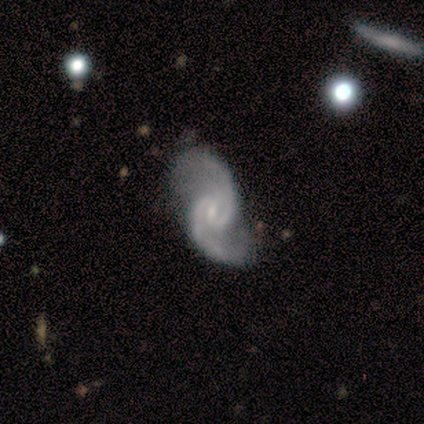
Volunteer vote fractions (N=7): Smooth or featured? 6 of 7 (86%) said featured or disk. Edge-on disk? 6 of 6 (100%) said no. Bar? 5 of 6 (83%) said no. Spiral arms? 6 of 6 (100%) said yes. Spiral winding? 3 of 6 (50%) said medium. Spiral arm count? 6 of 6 (100%) said 2. Bulge size? 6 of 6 (100%) said small. Merging? 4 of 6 (67%) said none.